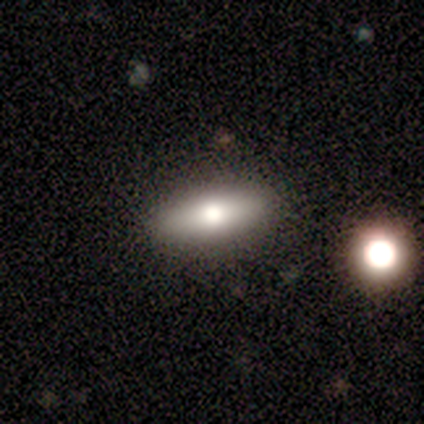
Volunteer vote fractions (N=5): smooth-or-featured: smooth: 100% | featured or disk: 0% | star or artifact: 0%
  how-rounded: in between: 80% | cigar-shaped: 20% | round: 0%
  merging: none: 80% | minor disturbance: 20% | major disturbance: 0% | merger: 0%